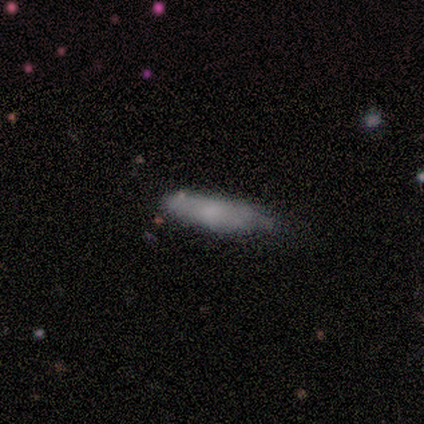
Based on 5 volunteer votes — This is clearly a smooth galaxy (100%). How rounded: likely cigar-shaped (60%). Merging: clearly minor disturbance (100%).